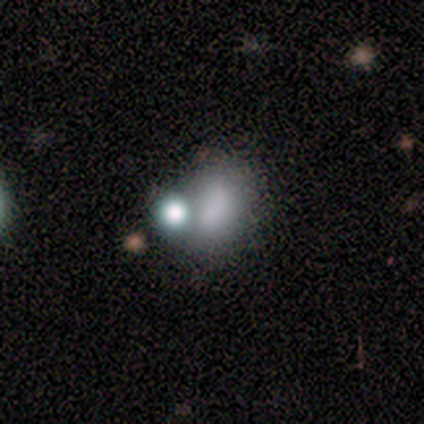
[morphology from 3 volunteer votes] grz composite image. It shows a featured or disk galaxy (67%) with no bar (100%), no spiral arms (100%) and a dominant central bulge (50%, tied with moderate). Merging: none (33%, tied with major disturbance and merger).